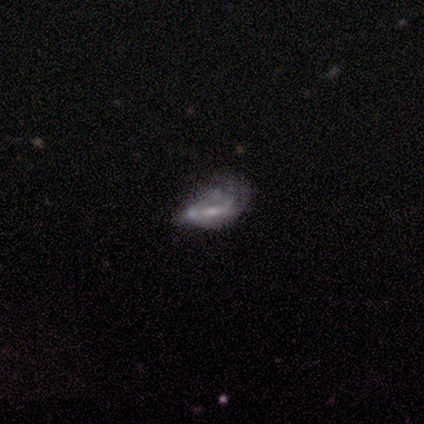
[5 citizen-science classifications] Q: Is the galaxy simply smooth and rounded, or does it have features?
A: featured or disk — 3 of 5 (60%).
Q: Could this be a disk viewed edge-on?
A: no — 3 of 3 (100%).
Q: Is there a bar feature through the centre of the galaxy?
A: weak — 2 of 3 (67%).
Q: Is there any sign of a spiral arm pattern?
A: yes — 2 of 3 (67%).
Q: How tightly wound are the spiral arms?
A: loose — 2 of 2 (100%).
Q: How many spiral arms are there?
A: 1 — 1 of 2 (50%, tied with can't tell).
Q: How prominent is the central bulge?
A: small — 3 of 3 (100%).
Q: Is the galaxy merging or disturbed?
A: minor disturbance — 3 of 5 (60%).